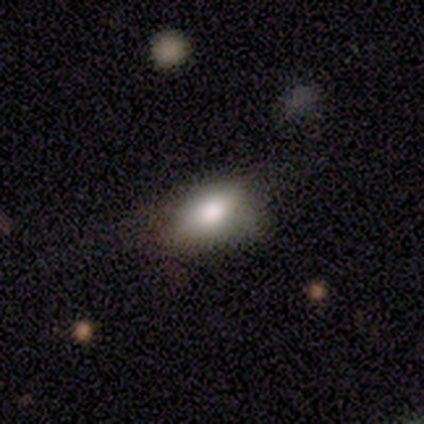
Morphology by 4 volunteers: type=smooth (100%); roundness=in between (100%); merging=none (50%).